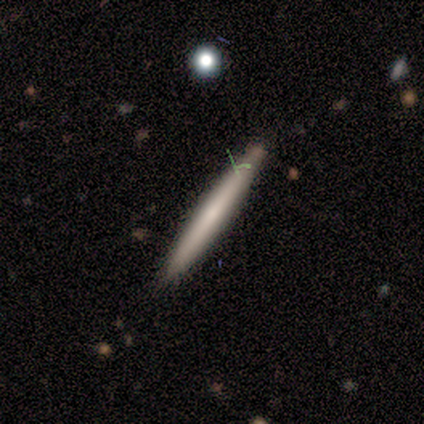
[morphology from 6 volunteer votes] Smooth or featured: smooth — 67% (featured or disk — 17%)
How rounded: cigar-shaped — 75% (in between — 25%)
Merging: none — 80% (minor disturbance — 20%)